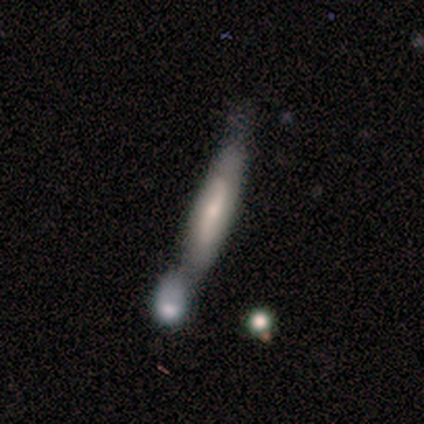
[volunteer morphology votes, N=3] This appears to be a featured or disk galaxy (100%) viewed edge-on (67%) with a rounded central bulge (100%). Merging: minor disturbance (33%, tied with major disturbance and merger).